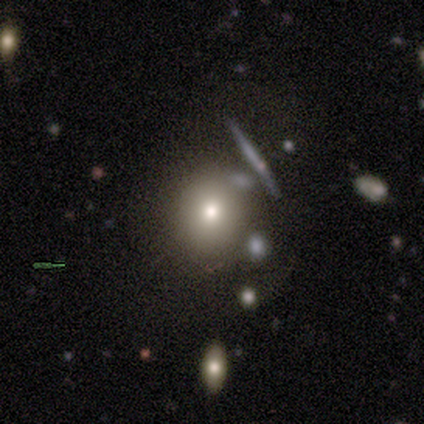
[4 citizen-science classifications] Smooth or featured? 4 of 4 (100%) said smooth. How rounded? 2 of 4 (50%) said round. Merging? 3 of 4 (75%) said major disturbance.